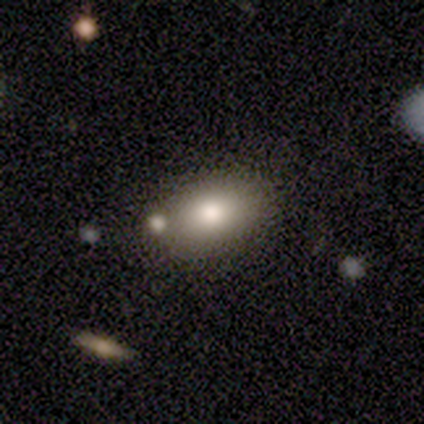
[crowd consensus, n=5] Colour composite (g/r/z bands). It shows a smooth galaxy with no disk features (100%) that is in between round and cigar-shaped (80%). Merging: none (60%).